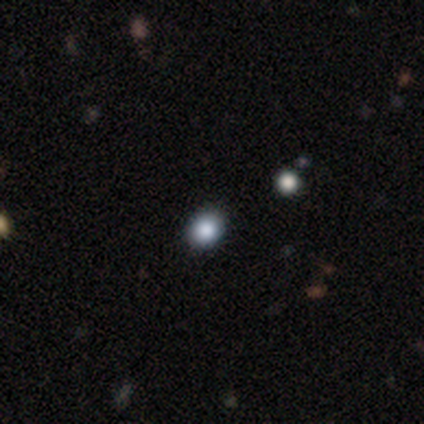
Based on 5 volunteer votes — Volunteers were most divided on "how rounded": in between: 75%, round: 25%, cigar-shaped: 0%. More confident: smooth or featured — smooth (80%); merging — none (75%).